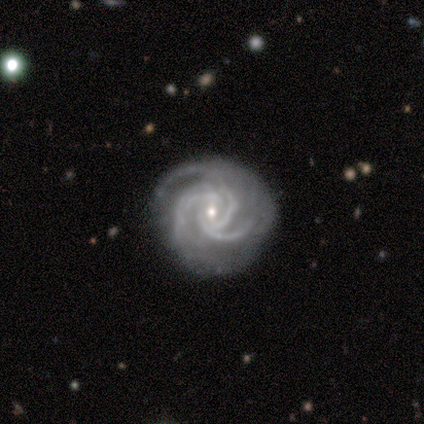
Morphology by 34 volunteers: Smooth or featured: featured or disk — 94% (smooth — 3%)
Edge-on disk: no — 97% (yes — 3%)
Bar: weak — 48% (no — 42%)
Spiral arms: yes — 100%
Spiral winding: tight — 52% (medium — 48%)
Spiral arm count: 3 — 58% (4 — 35%)
Bulge size: small — 52% (moderate — 48%)
Merging: none — 76% (minor disturbance — 15%)